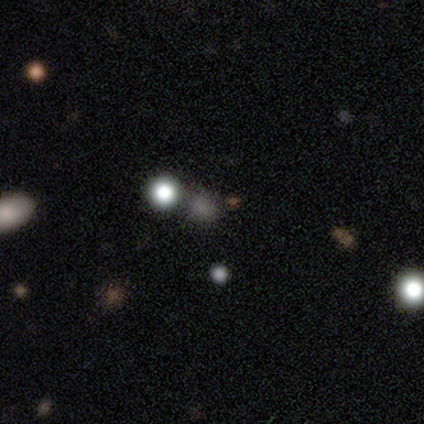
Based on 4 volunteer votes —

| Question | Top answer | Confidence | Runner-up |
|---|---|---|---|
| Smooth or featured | smooth | 50% | tied: star or artifact (50%) |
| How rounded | round | 50% | tied: in between (50%) |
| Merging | minor disturbance | 50% | tied: merger (50%) |